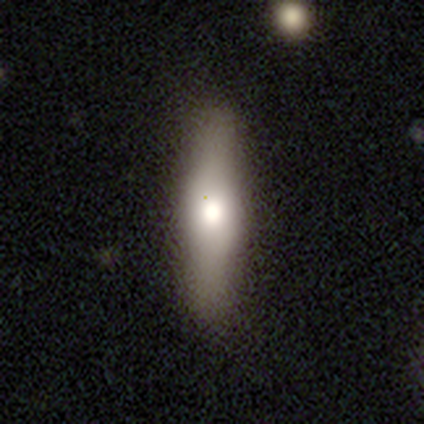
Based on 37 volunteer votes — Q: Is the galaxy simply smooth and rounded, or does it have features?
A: smooth — 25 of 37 (68%).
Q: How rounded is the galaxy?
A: cigar-shaped — 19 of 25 (76%).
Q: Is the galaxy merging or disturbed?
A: none — 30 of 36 (83%).